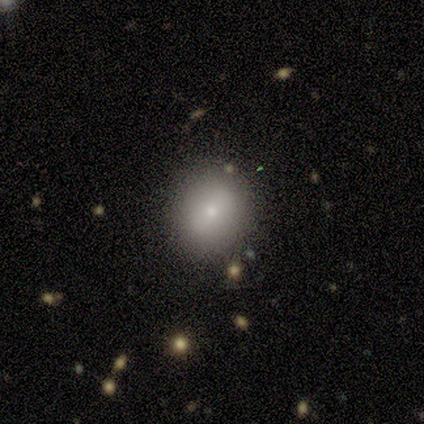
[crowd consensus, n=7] smooth 86%, featured or disk 14%, star or artifact 0%. Down the decision tree: how rounded — round (83%); merging — none (100%).